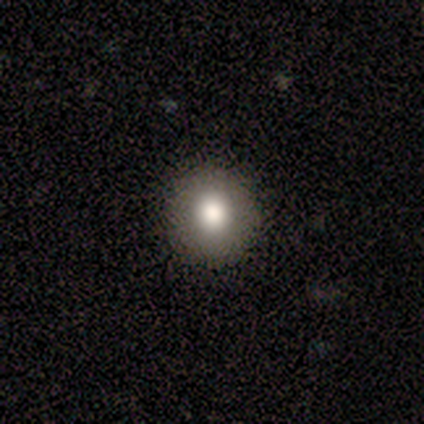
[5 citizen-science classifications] A smooth galaxy with no disk features (80%) that is round (100%). Merging: none (100%).